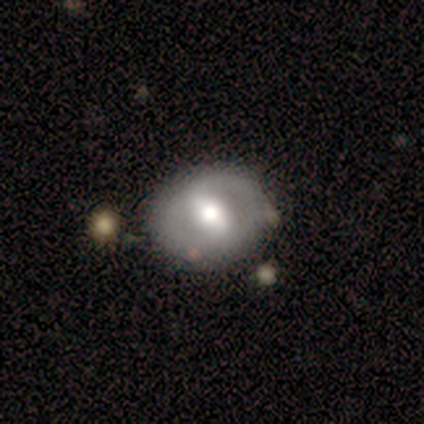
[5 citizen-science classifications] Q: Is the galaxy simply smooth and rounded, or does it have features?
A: featured or disk — 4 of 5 (80%).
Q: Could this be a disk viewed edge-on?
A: no — 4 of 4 (100%).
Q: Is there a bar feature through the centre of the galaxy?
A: strong — 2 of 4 (50%).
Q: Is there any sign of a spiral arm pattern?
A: no — 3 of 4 (75%).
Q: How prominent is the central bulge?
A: moderate — 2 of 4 (50%).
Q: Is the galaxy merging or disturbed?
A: none — 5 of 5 (100%).